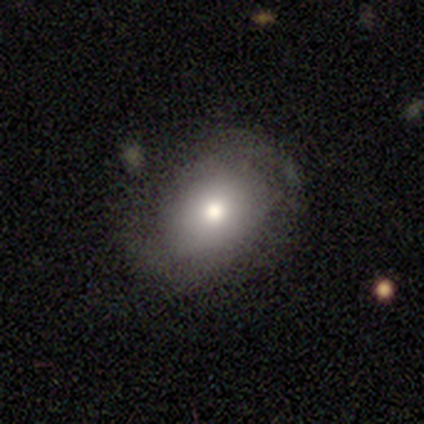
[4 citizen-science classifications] This appears to be a smooth galaxy with no disk features (50%, tied with featured or disk) that is round (50%, tied with in between). Merging: none (100%).